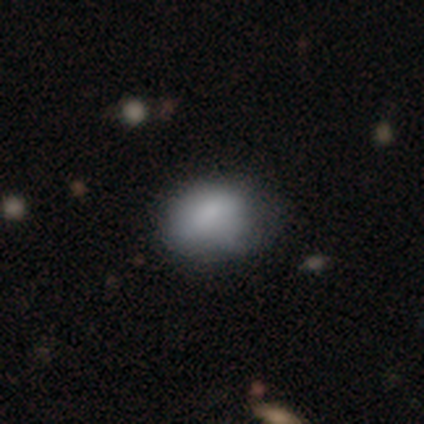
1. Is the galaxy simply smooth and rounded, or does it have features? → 86% smooth, 11% featured or disk, 3% star or artifact.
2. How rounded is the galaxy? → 61% in between, 32% round, 6% cigar-shaped.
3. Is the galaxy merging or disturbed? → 66% none, 26% minor disturbance, 9% major disturbance, 0% merger.